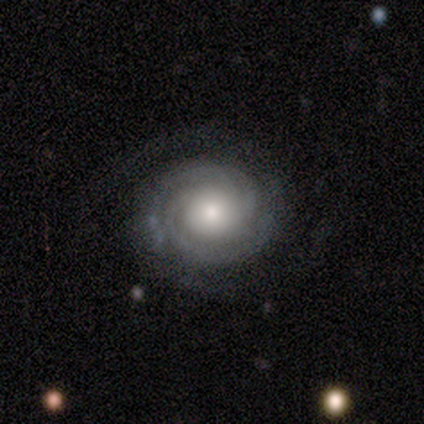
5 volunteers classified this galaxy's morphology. A featured or disk galaxy (100%) with no bar (80%), 2 (60%) tight (80%) spiral arms (100%) and a large central bulge (40%, tied with moderate).

Vote fractions:
- Smooth or featured? featured or disk: 100% / smooth: 0% / star or artifact: 0%
- Edge-on disk? no: 100% / yes: 0%
- Bar? no: 80% / strong: 20% / weak: 0%
- Spiral arms? yes: 100% / no: 0%
- Spiral winding? tight: 80% / medium: 20% / loose: 0%
- Spiral arm count? 2: 60% / can't tell: 40% / 1: 0% / 3: 0% / 4: 0% / more than 4: 0%
- Bulge size? large: 40% (tied) / moderate: 40% (tied) / small: 20% / dominant: 0% / none: 0%
- Merging? none: 80% / minor disturbance: 20% / major disturbance: 0% / merger: 0%